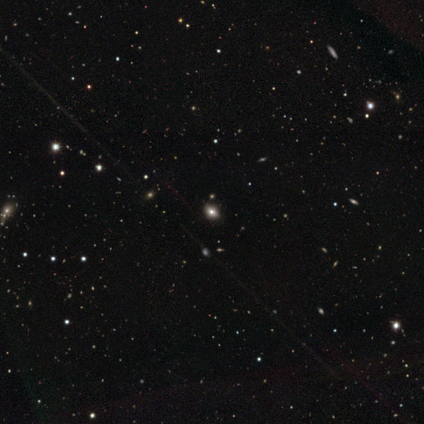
smooth 86%, star or artifact 14%, featured or disk 0%. Down the decision tree: how rounded — in between (67%); merging — none (83%).